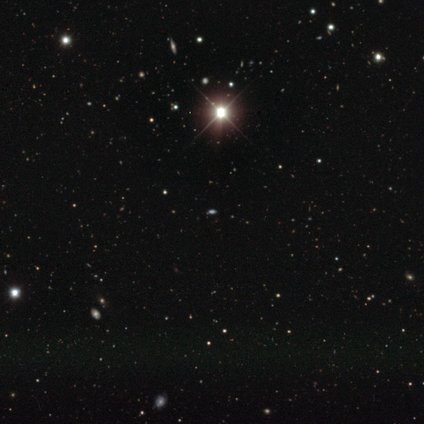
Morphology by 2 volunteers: Q: Smooth or featured?
A: star or artifact (100%)